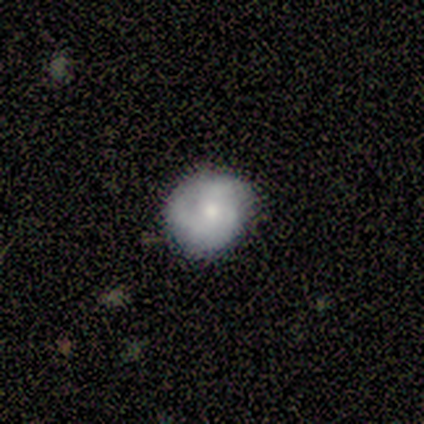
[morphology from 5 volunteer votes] A smooth galaxy with no disk features (80%) that is round (50%, tied with in between).

Vote fractions:
- Smooth or featured? smooth: 80% / featured or disk: 20% / star or artifact: 0%
- How rounded? round: 50% (tied) / in between: 50% (tied) / cigar-shaped: 0%
- Merging? none: 80% / minor disturbance: 20% / major disturbance: 0% / merger: 0%